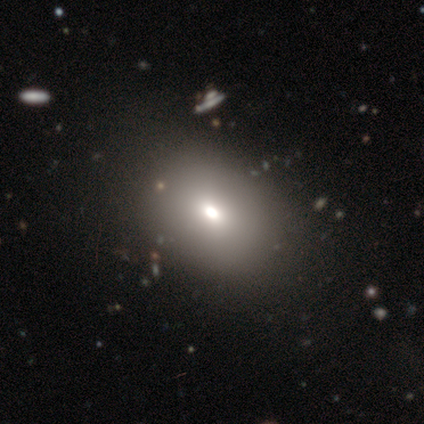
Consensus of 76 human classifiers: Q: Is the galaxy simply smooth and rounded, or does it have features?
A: smooth — 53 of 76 (70%).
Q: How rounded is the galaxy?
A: in between — 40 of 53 (75%).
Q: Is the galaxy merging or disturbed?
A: none — 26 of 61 (43%).